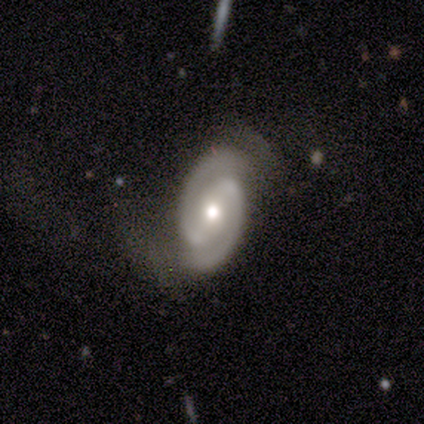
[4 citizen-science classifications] Smooth or featured?
  - featured or disk: 100% *
  - smooth: 0%
  - star or artifact: 0%
Edge-on disk?
  - no: 100% *
  - yes: 0%
Bar?
  - strong: 50% * (tied)
  - weak: 50% * (tied)
  - no: 0%
Spiral arms?
  - yes: 100% *
  - no: 0%
Spiral winding?
  - medium: 75% *
  - tight: 25%
  - loose: 0%
Spiral arm count?
  - 2: 100% *
  - 1: 0%
  - 3: 0%
  - 4: 0%
  - more than 4: 0%
  - can't tell: 0%
Bulge size?
  - moderate: 50% *
  - large: 25%
  - small: 25%
  - dominant: 0%
  - none: 0%
Merging?
  - none: 100% *
  - minor disturbance: 0%
  - major disturbance: 0%
  - merger: 0%